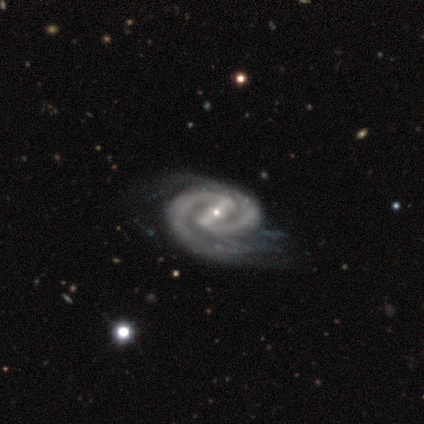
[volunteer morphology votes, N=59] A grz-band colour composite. It shows a featured or disk galaxy (90%) with a strong bar (73%), 2 (86%) tight (55%) spiral arms (100%) and a small central bulge (78%). Merging: none (43%).